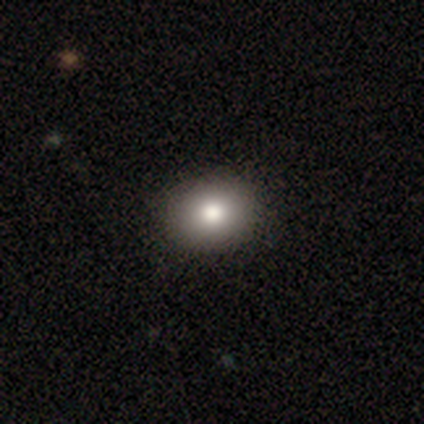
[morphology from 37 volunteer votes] A smooth galaxy with no disk features (73%) that is round (59%).

Vote fractions:
- Smooth or featured? smooth: 73% / star or artifact: 16% / featured or disk: 11%
- How rounded? round: 59% / in between: 41% / cigar-shaped: 0%
- Merging? none: 90% / major disturbance: 6% / minor disturbance: 3% / merger: 0%